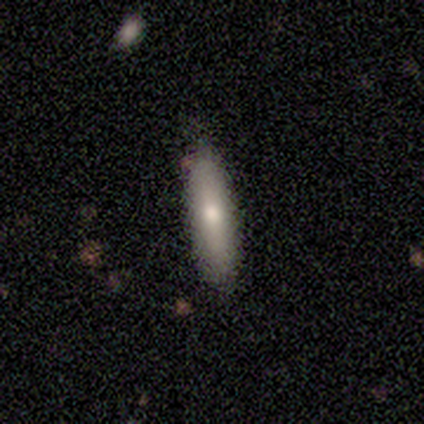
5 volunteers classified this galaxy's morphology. Q: Smooth or featured?
A: smooth (80%); runner-up: star or artifact (20%)
Q: How rounded?
A: in between (50%); tied with: cigar-shaped (50%)
Q: Merging?
A: none (100%)